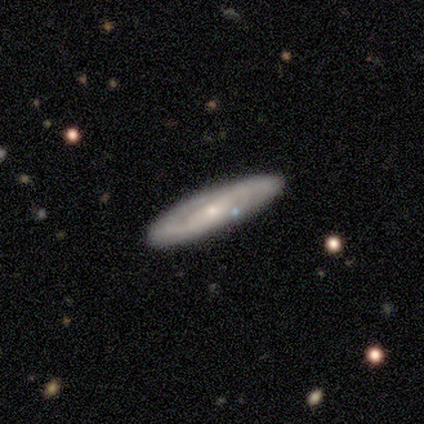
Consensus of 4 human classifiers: Volunteers were most divided on "smooth or featured" (2-way tie): smooth: 50%, featured or disk: 50%, star or artifact: 0%; "how rounded" (2-way tie): in between: 50%, cigar-shaped: 50%, round: 0%. More confident: merging — none (100%).